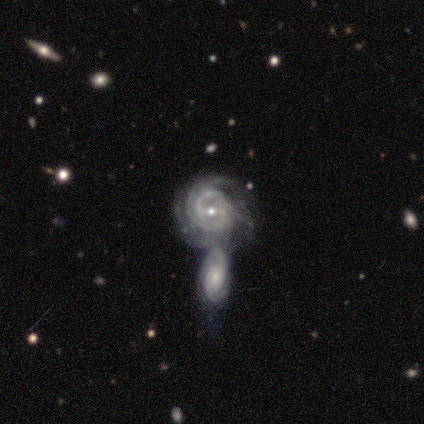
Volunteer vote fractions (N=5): smooth-or-featured: featured or disk: 100% | smooth: 0% | star or artifact: 0%
  disk-edge-on: no: 100% | yes: 0%
    bar: weak: 80% | no: 20% | strong: 0%
    has-spiral-arms: yes: 100% | no: 0%
      spiral-winding: tight: 80% | loose: 20% | medium: 0%
      spiral-arm-count: can't tell: 60% | 3: 20% | more than 4: 20% | 1: 0% | 2: 0% | 4: 0%
    bulge-size: small: 80% | moderate: 20% | dominant: 0% | large: 0% | none: 0%
  merging: merger: 100% | none: 0% | minor disturbance: 0% | major disturbance: 0%